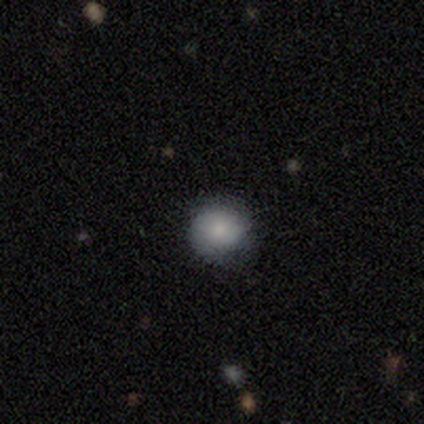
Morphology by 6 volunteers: smooth_or_featured: smooth (p=1.00)
how_rounded: round (p=1.00)
merging: none (p=0.67) [alt: minor disturbance p=0.33]